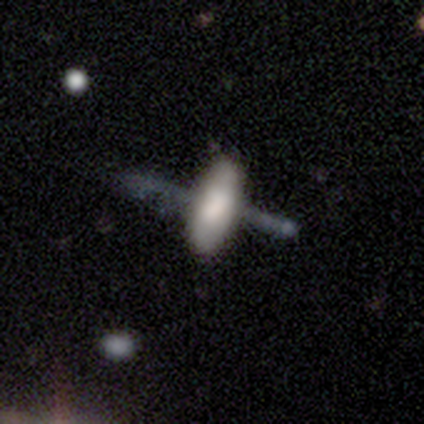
Smooth or featured? smooth (80%)
How rounded? in between (50%, tied with cigar-shaped)
Merging? none (100%)